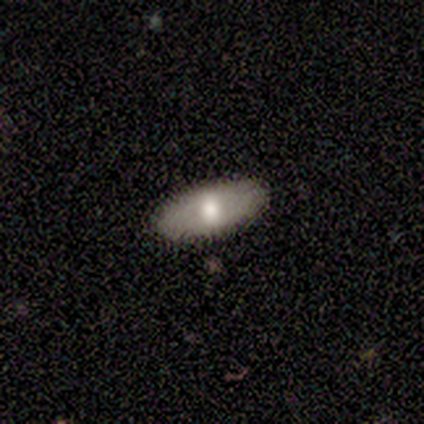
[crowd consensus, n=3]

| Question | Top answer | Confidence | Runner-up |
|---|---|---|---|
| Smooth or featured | smooth | 67% | featured or disk (33%) |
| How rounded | in between | 100% | — |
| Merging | none | 100% | — |